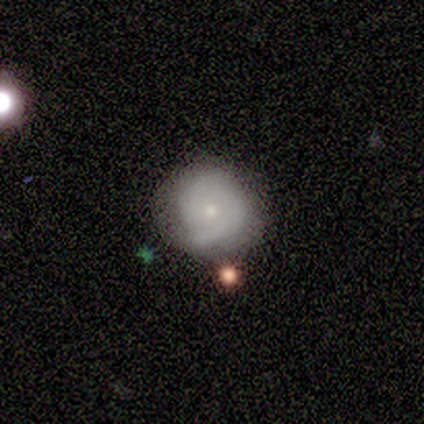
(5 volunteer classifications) smooth-or-featured: featured or disk: 100% | smooth: 0% | star or artifact: 0%
  disk-edge-on: no: 100% | yes: 0%
    bar: no: 80% | weak: 20% | strong: 0%
    has-spiral-arms: yes: 80% | no: 20%
      spiral-winding: tight: 75% | medium: 25% | loose: 0%
      spiral-arm-count: 1: 50% (tied) | 2: 50% (tied) | 3: 0% | 4: 0% | more than 4: 0% | can't tell: 0%
    bulge-size: moderate: 100% | dominant: 0% | large: 0% | small: 0% | none: 0%
  merging: none: 80% | minor disturbance: 20% | major disturbance: 0% | merger: 0%